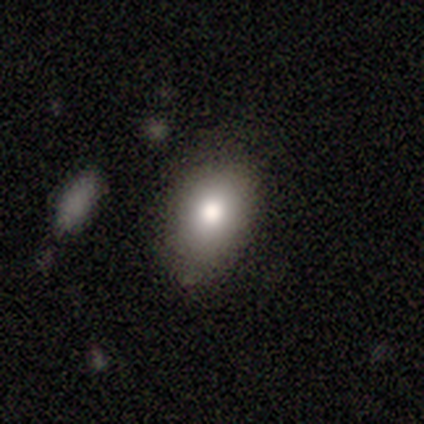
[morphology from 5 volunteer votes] Q: Smooth or featured?
A: smooth (80%); runner-up: featured or disk (20%)
Q: How rounded?
A: in between (50%); runner-up: round (25%)
Q: Merging?
A: none (80%); runner-up: merger (20%)